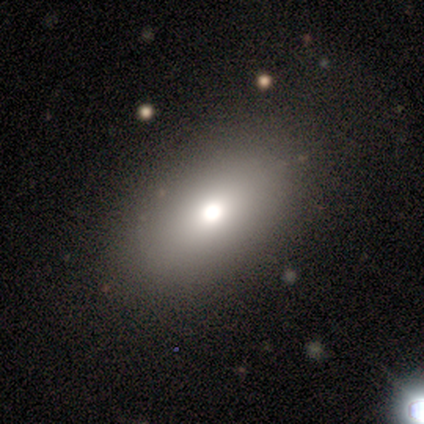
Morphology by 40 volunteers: This appears to be a smooth galaxy with no disk features (70%) that is in between round and cigar-shaped (86%). Merging: none (86%).